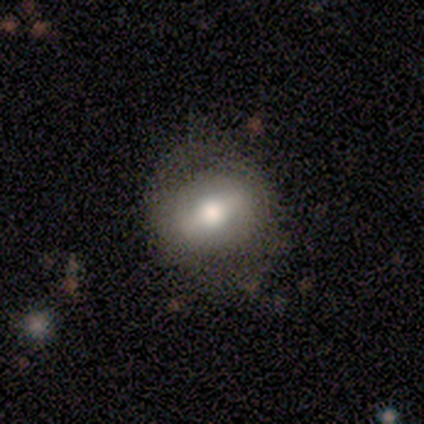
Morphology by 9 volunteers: type=smooth (56%); roundness=in between (60%); merging=none (89%).